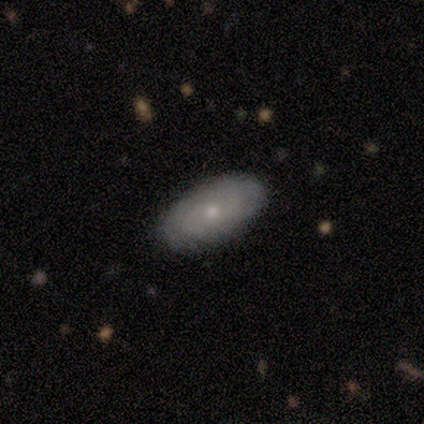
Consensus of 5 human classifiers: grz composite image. It shows a smooth galaxy with no disk features (60%) that is in between round and cigar-shaped (100%). Merging: none (100%).